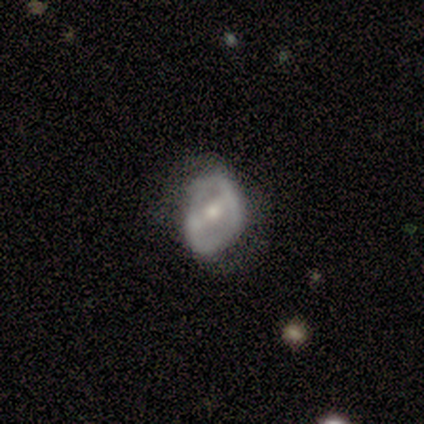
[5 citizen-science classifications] A featured or disk galaxy (60%) with a strong bar (67%), 2 (100%) tight (50%, tied with loose) spiral arms (67%) and a small central bulge (67%). Merging: none (75%).